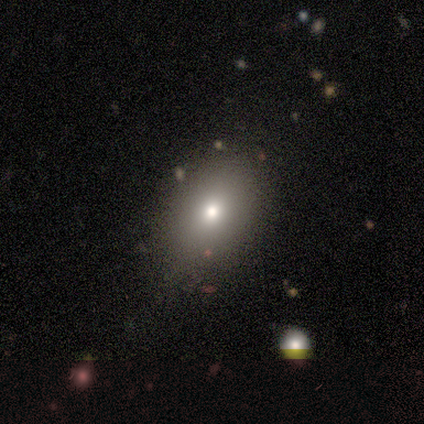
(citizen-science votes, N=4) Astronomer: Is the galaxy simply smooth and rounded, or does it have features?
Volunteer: smooth — 100%.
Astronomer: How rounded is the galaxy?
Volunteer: round — 50%, tied with in between at 50%.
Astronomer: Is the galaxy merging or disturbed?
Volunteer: none — 75%.